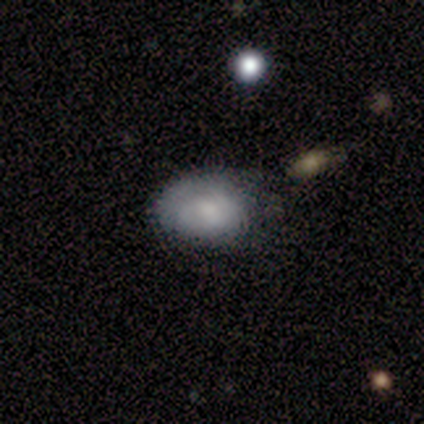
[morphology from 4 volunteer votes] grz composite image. It shows a smooth galaxy with no disk features (100%) that is in between round and cigar-shaped (75%). Merging: none (100%).